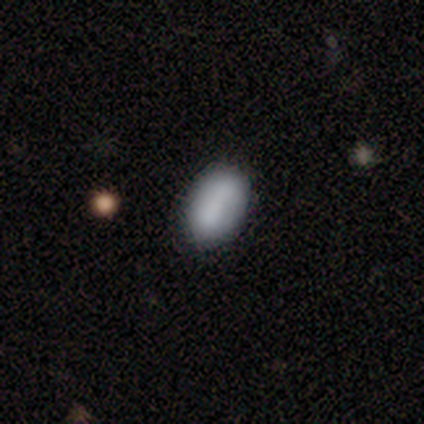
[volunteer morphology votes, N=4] smooth_or_featured: smooth (p=0.50) [alt: featured or disk p=0.25]
how_rounded: in between (p=1.00)
merging: none (p=1.00)